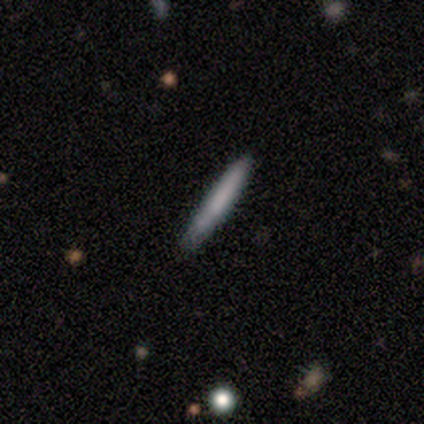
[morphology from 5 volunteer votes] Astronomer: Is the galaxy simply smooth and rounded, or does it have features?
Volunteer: smooth — 60% (runner-up: featured or disk, 40%).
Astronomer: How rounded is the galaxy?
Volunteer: cigar-shaped — 100%.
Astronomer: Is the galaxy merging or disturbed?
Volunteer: none — 80%.